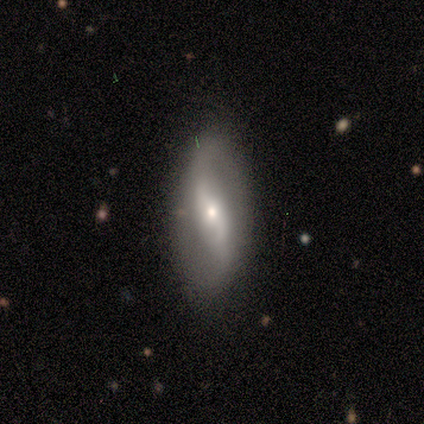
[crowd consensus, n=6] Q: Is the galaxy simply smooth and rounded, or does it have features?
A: featured or disk — 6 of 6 (100%).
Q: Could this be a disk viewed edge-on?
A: no — 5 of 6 (83%).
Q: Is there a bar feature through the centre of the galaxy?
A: no — 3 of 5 (60%).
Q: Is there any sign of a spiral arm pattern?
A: yes — 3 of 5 (60%).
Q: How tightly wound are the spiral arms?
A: loose — 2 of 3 (67%).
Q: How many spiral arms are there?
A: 2 — 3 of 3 (100%).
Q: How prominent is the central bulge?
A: small — 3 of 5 (60%).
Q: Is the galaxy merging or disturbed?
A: none — 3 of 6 (50%).